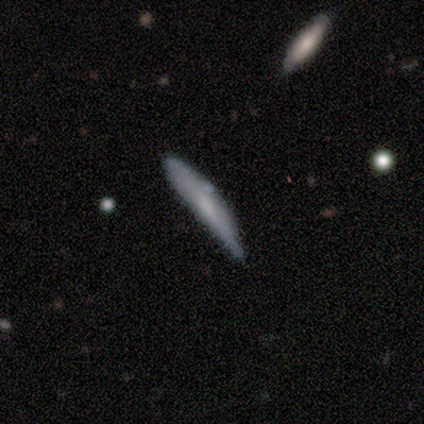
A smooth galaxy with no disk features (80%) that is cigar-shaped (100%).

Vote fractions:
- Smooth or featured? smooth: 80% / featured or disk: 20% / star or artifact: 0%
- How rounded? cigar-shaped: 100% / round: 0% / in between: 0%
- Merging? none: 60% / minor disturbance: 40% / major disturbance: 0% / merger: 0%